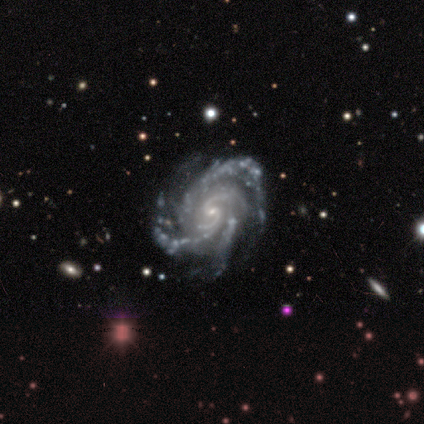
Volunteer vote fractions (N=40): This appears to be a featured or disk galaxy (98%) with no bar (62%), 3 (38%) medium (54%) spiral arms (100%) and a small central bulge (92%). Merging: none (67%).